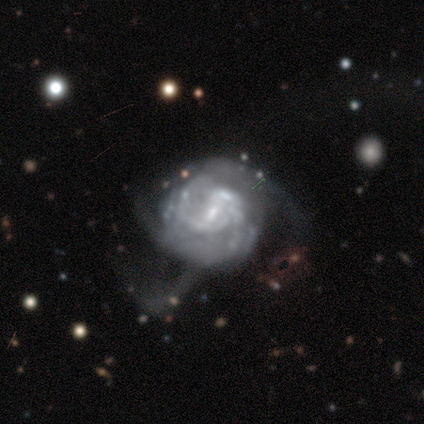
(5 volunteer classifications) Smooth or featured: featured or disk — 100%
Edge-on disk: no — 100%
Bar: weak — 60% (no — 40%)
Spiral arms: yes — 80% (no — 20%)
Spiral winding: tight — 75% (medium — 25%)
Spiral arm count: can't tell — 100%
Bulge size: moderate — 40% (tied with small — 40%)
Merging: major disturbance — 60% (none — 20%)